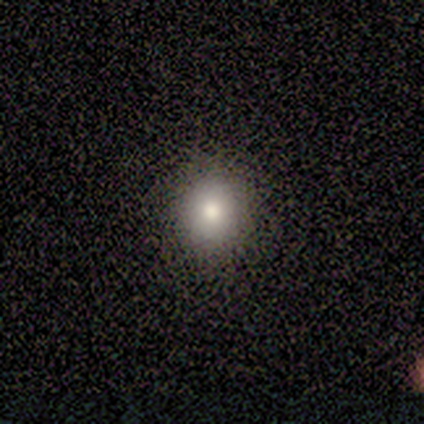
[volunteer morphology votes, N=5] Smooth or featured: smooth — 100%
How rounded: round — 80% (in between — 20%)
Merging: none — 80% (minor disturbance — 20%)